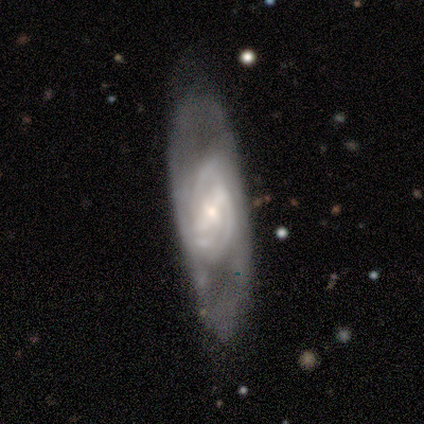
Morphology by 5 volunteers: featured or disk 100%, smooth 0%, star or artifact 0%. Down the decision tree: edge-on disk — no (60%); bar — weak (67%); spiral arms — yes (100%); spiral arm count — 2 (67%); spiral winding — tight (67%); bulge size — small (67%); merging — minor disturbance (60%).